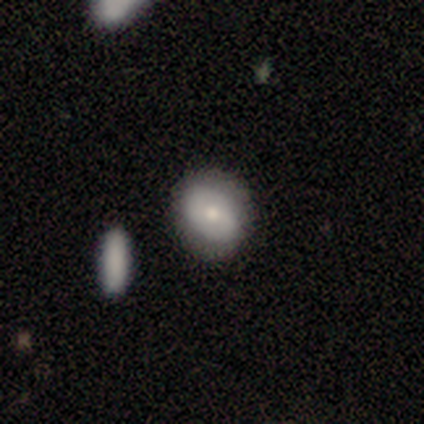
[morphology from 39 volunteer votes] This is possibly a smooth galaxy (56%). How rounded: possibly round (59%). Merging: clearly none (84%).